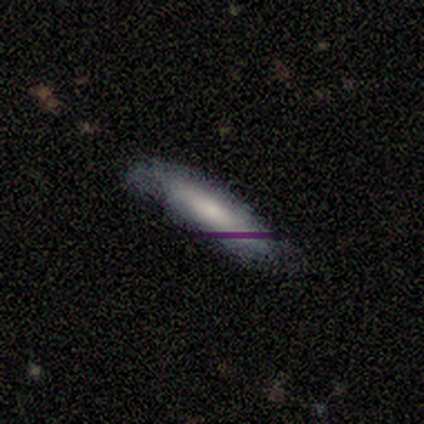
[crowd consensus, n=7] This appears to be a smooth galaxy with no disk features (71%) that is cigar-shaped (60%). Merging: none (57%).